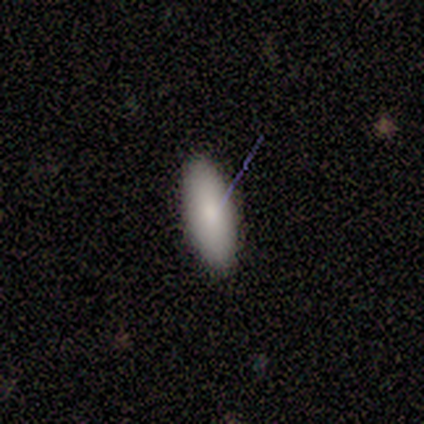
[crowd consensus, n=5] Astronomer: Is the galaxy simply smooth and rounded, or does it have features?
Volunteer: smooth — 80%.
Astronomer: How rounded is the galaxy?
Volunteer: in between — 100%.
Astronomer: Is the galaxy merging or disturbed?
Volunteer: none — 80%.